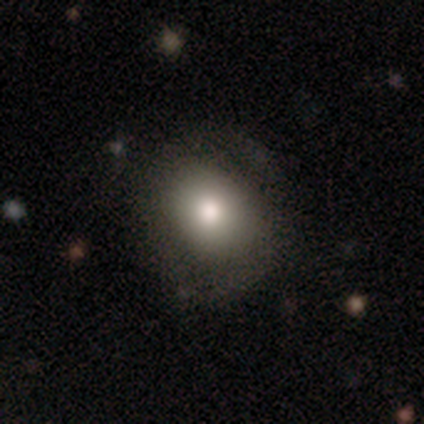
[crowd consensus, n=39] This appears to be a smooth galaxy with no disk features (74%) that is round (66%). Merging: none (53%).